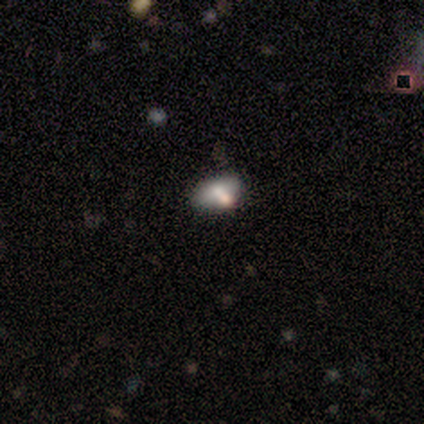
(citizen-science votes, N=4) Volunteers were most divided on "merging" (3-way tie): none: 33%, minor disturbance: 33%, merger: 33%, major disturbance: 0%. More confident: how rounded — in between (100%); smooth or featured — smooth (75%).